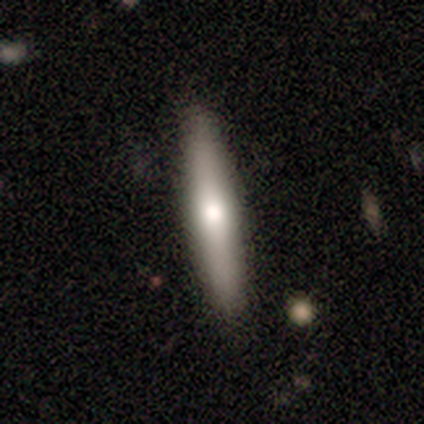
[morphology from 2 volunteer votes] Overall: smooth (100%). How rounded: cigar-shaped (100%). Merging: none (100%).